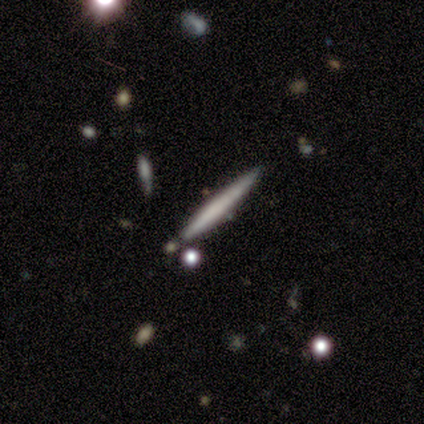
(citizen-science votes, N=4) This is clearly a smooth galaxy (100%). How rounded: clearly cigar-shaped (100%). Merging: clearly none (100%).